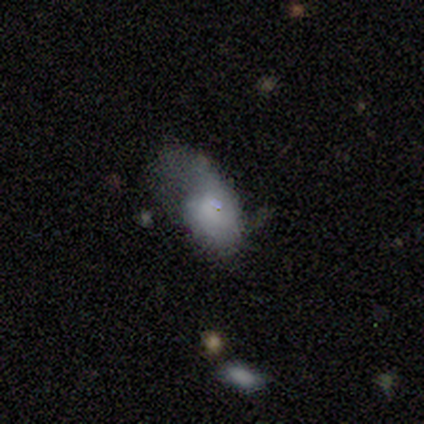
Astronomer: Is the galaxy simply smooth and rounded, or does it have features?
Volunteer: smooth — 60% (runner-up: featured or disk, 40%).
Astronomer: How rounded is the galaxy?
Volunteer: in between — 100%.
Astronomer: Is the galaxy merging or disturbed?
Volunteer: major disturbance — 80%.